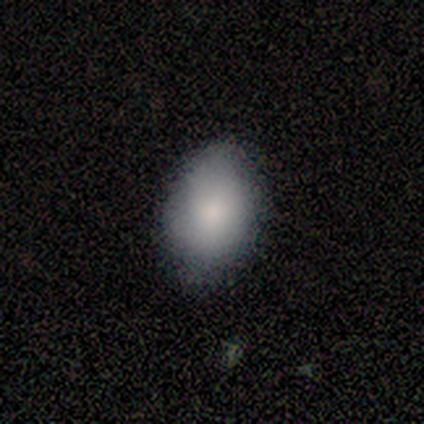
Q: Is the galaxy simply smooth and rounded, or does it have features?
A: smooth — 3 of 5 (60%).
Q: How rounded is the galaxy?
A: in between — 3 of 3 (100%).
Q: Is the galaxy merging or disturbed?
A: none — 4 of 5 (80%).